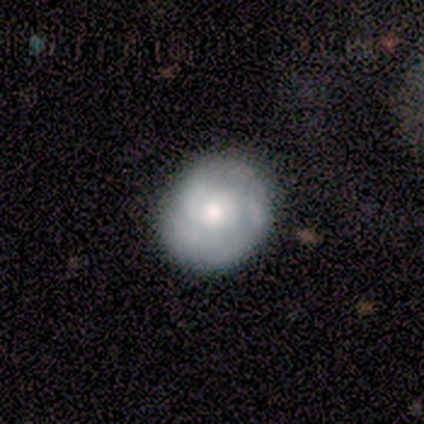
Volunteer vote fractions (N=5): This is clearly a featured or disk galaxy (80%). It is clearly not viewed edge-on (100%). Bar: likely no (75%). Spiral arm pattern: likely yes (75%). Spiral arm count: likely 3 (67%). Spiral winding: likely tight (67%). Central bulge: likely small (75%). Merging: clearly none (80%).